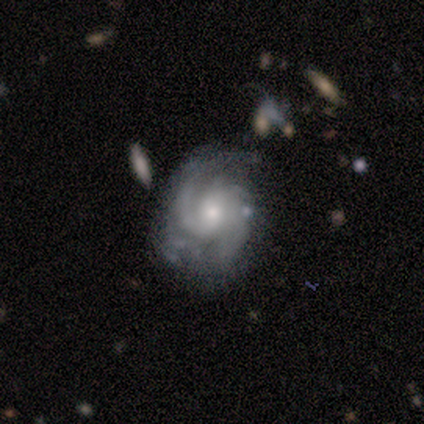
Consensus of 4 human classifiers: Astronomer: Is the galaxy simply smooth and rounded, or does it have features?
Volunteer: featured or disk — 100%.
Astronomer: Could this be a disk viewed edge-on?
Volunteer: no — 100%.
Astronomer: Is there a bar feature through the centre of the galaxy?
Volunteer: weak — 50%, tied with no at 50%.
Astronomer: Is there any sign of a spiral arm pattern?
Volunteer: yes — 100%.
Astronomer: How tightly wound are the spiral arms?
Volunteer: tight — 50%, tied with medium at 50%.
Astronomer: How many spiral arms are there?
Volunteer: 2 — 100%.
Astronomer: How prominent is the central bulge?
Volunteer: small — 75%.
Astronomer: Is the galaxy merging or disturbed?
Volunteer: none — 50%.